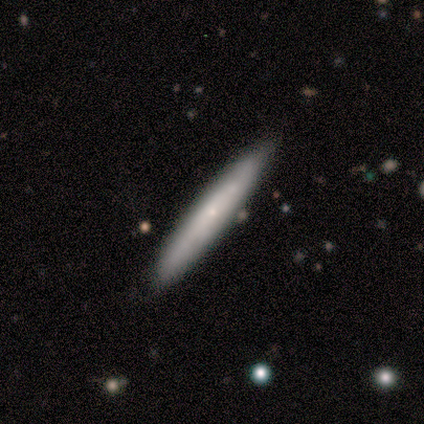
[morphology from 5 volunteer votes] Smooth or featured: smooth — 60% (featured or disk — 40%)
How rounded: cigar-shaped — 100%
Merging: none — 80% (major disturbance — 20%)